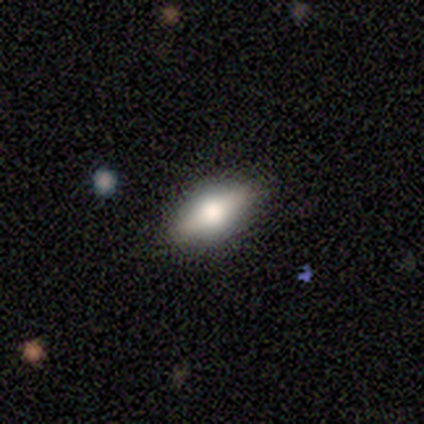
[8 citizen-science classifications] Overall: smooth (62%; featured or disk 38%). How rounded: in between (80%). Merging: none (88%).